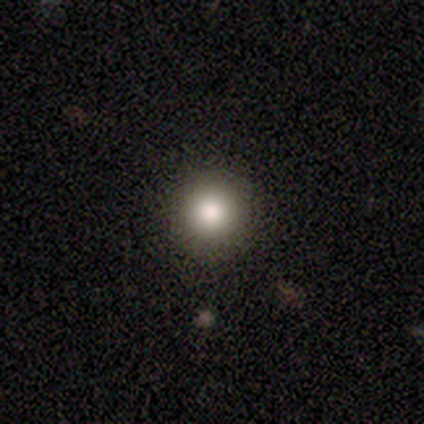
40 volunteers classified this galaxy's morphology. Smooth or featured? smooth (78%)
How rounded? round (97%)
Merging? none (100%)